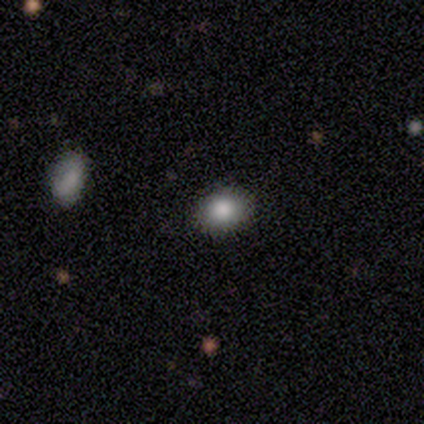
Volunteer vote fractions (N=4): star or artifact 50%, smooth 25%, featured or disk 25%.